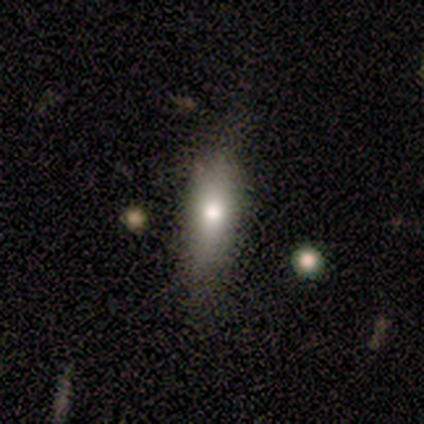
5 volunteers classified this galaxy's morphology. Overall: smooth (60%; star or artifact 40%). How rounded: cigar-shaped (67%; in between 33%). Merging: none (67%; minor disturbance 33%).